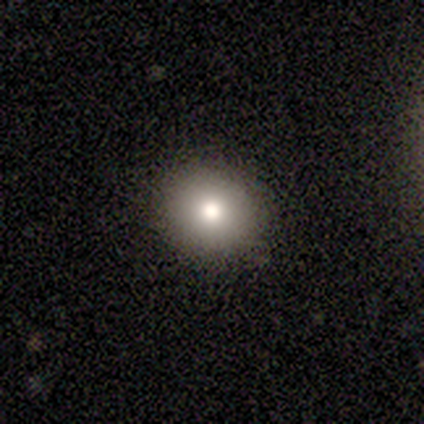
Overall: smooth (80%). How rounded: round (100%). Merging: none (80%).